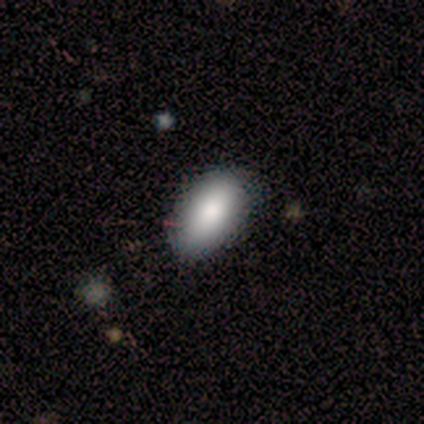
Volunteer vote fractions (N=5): smooth_or_featured: smooth (p=1.00)
how_rounded: in between (p=1.00)
merging: none (p=0.80) [alt: major disturbance p=0.20]